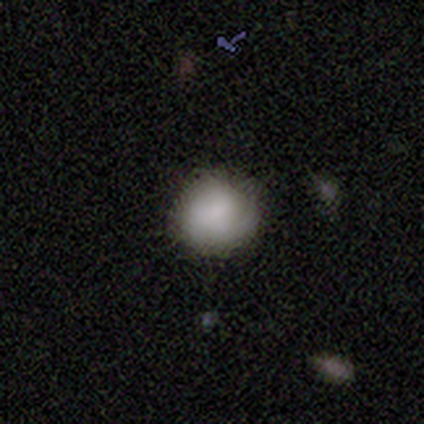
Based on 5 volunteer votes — smooth-or-featured: smooth: 80% | featured or disk: 20% | star or artifact: 0%
  how-rounded: round: 50% (tied) | in between: 50% (tied) | cigar-shaped: 0%
  merging: none: 60% | minor disturbance: 20% | major disturbance: 20% | merger: 0%